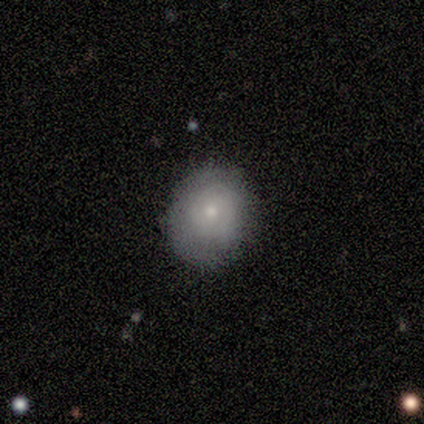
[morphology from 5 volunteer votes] Q: Smooth or featured?
A: featured or disk (60%); runner-up: smooth (40%)
Q: Edge-on disk?
A: no (100%)
Q: Bar?
A: no (67%); runner-up: weak (33%)
Q: Spiral arms?
A: no (67%); runner-up: yes (33%)
Q: Bulge size?
A: small (100%)
Q: Merging?
A: none (100%)